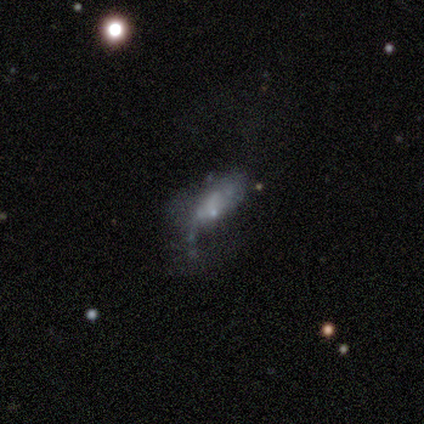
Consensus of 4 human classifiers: Smooth or featured?
  - smooth: 50% * (tied)
  - featured or disk: 50% * (tied)
  - star or artifact: 0%
How rounded?
  - in between: 100% *
  - round: 0%
  - cigar-shaped: 0%
Merging?
  - none: 25% * (tied)
  - minor disturbance: 25% * (tied)
  - major disturbance: 25% * (tied)
  - merger: 25% * (tied)